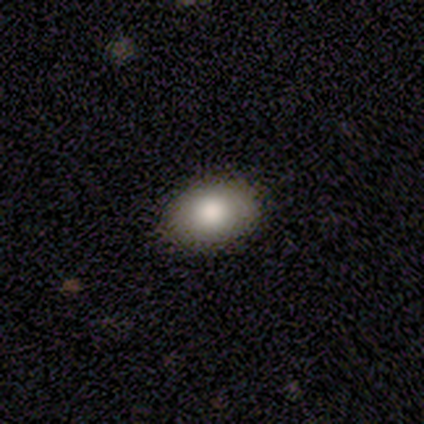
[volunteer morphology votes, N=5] smooth 100%, featured or disk 0%, star or artifact 0%. Down the decision tree: how rounded — in between (100%); merging — none (100%).